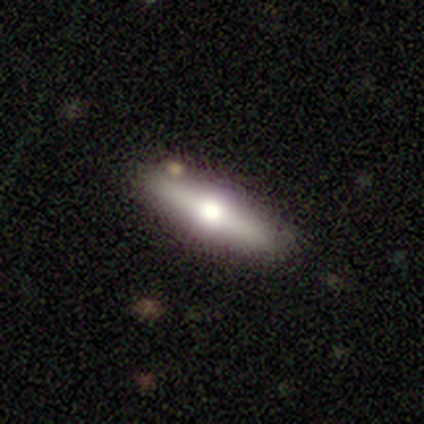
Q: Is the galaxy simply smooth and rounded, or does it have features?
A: featured or disk — 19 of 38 (50%).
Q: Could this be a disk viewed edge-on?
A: yes — 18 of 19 (95%).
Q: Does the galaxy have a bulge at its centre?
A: rounded — 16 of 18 (89%).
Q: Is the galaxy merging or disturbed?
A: none — 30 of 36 (83%).